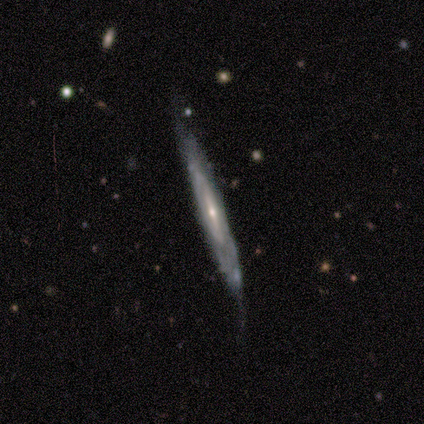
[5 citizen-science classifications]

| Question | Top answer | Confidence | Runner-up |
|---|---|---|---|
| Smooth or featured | featured or disk | 80% | smooth (20%) |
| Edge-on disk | yes | 75% | no (25%) |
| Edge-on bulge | none | 67% | rounded (33%) |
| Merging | none | 80% | minor disturbance (20%) |